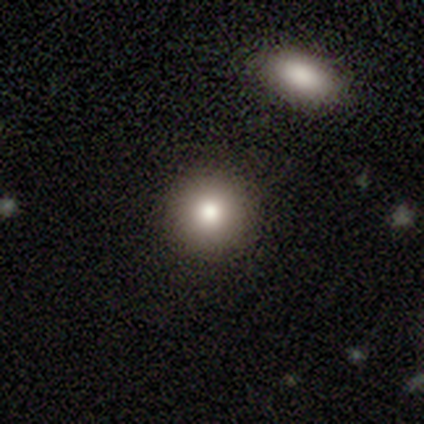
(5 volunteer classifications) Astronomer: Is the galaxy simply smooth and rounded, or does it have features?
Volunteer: smooth — 60%.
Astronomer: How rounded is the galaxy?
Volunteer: round — 100%.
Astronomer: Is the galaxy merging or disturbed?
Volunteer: none — 100%.